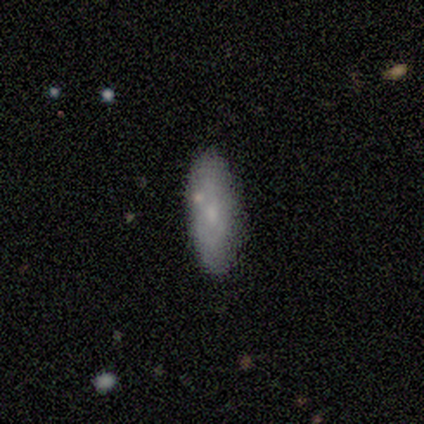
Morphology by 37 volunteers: smooth 68%, featured or disk 24%, star or artifact 8%. Down the decision tree: how rounded — cigar-shaped (52%); merging — none (82%).